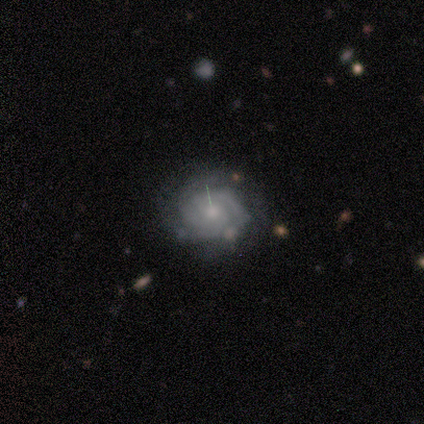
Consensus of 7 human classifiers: featured or disk 100%, smooth 0%, star or artifact 0%. Down the decision tree: edge-on disk — no (100%); bar — no (86%); spiral arms — yes (100%); spiral arm count — can't tell (71%); spiral winding — tight (71%); bulge size — small (71%); merging — none (71%).